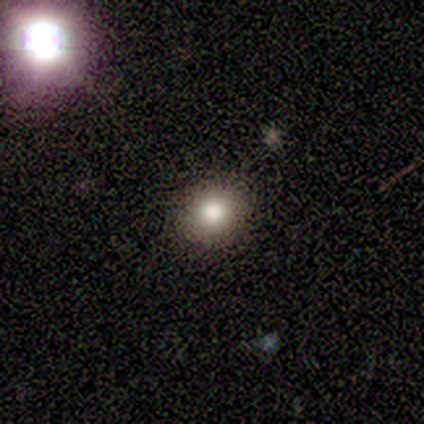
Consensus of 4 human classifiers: smooth 100%, featured or disk 0%, star or artifact 0%. Down the decision tree: how rounded — round (75%); merging — none (100%).